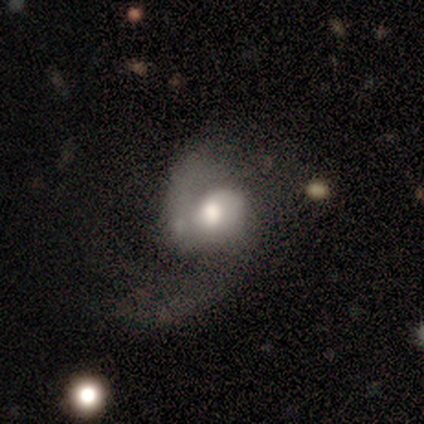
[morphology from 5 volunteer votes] A featured or disk galaxy (100%) with a weak bar (40%, tied with no), 2 (100%) medium (60%) spiral arms (100%) and a moderate central bulge (80%). Merging: none (40%, tied with major disturbance).